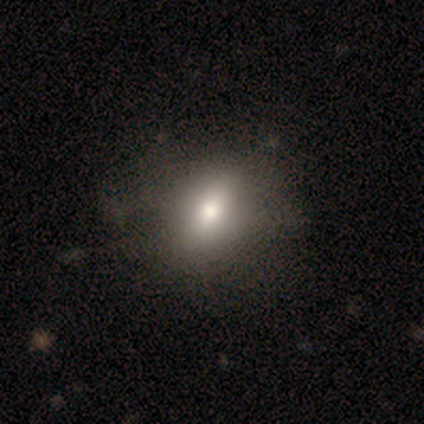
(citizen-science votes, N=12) smooth_or_featured: smooth (p=0.58) [alt: star or artifact p=0.33]
how_rounded: round (p=0.57) [alt: in between p=0.43]
merging: none (p=0.75) [alt: minor disturbance p=0.25]